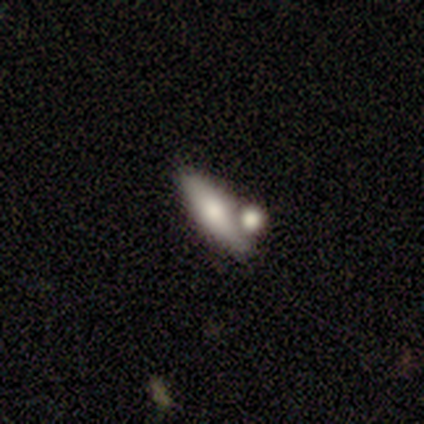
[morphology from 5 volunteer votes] type=smooth (80%); roundness=in between (50%, tied with cigar-shaped); merging=merger (60%).